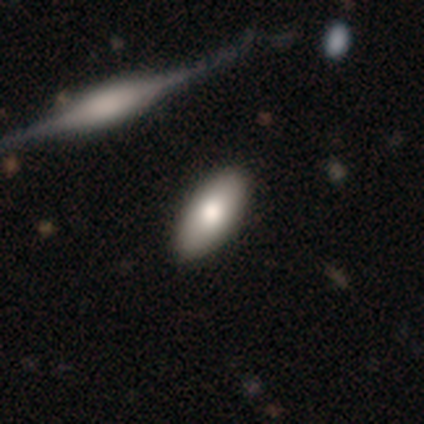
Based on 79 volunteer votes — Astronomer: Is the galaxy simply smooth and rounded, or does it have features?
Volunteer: smooth — 84%.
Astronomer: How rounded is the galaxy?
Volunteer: in between — 94%.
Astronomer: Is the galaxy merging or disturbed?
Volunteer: none — 47%.